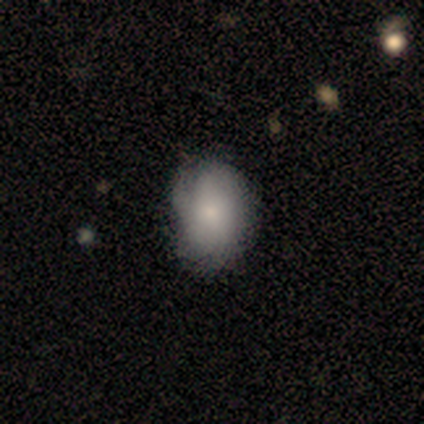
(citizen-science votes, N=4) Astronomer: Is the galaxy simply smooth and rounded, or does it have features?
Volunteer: smooth — 75%.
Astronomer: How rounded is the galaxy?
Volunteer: in between — 67%.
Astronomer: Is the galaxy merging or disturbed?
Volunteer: none — 100%.